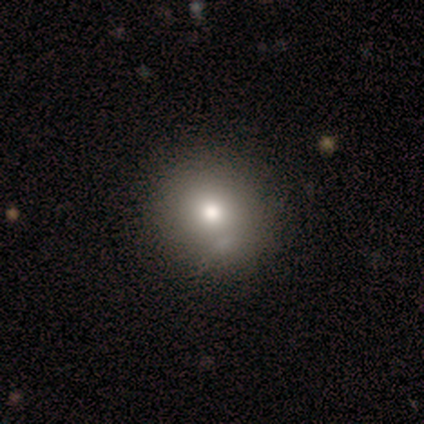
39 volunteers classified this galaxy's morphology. A smooth galaxy with no disk features (77%) that is round (87%).

Vote fractions:
- Smooth or featured? smooth: 77% / featured or disk: 13% / star or artifact: 10%
- How rounded? round: 87% / in between: 13% / cigar-shaped: 0%
- Merging? none: 77% / minor disturbance: 11% / merger: 9% / major disturbance: 3%